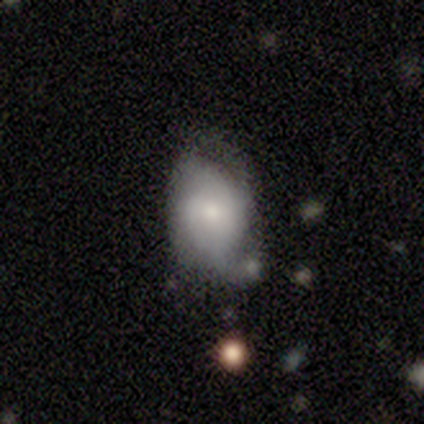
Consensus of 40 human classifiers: This is possibly a featured or disk galaxy (50%). It is clearly not viewed edge-on (90%). Bar: possibly no (50%). Spiral arm pattern: likely yes (78%). Spiral arm count: possibly can't tell (57%). Spiral winding: possibly medium (50%). Central bulge: marginally moderate (39%, tied with small). Merging: marginally minor disturbance (41%).